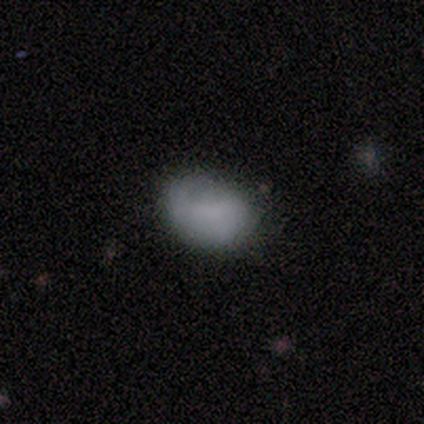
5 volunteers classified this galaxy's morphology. This is clearly a smooth galaxy (100%). How rounded: clearly round (80%). Merging: marginally none (40%, tied with minor disturbance).